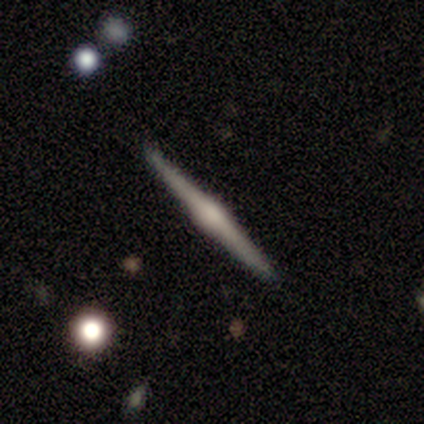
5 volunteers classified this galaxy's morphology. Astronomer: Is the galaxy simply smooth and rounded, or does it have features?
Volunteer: featured or disk — 100%.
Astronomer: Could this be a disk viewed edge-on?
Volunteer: yes — 100%.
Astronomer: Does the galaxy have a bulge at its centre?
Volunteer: rounded — 100%.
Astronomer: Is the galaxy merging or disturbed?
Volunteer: none — 100%.